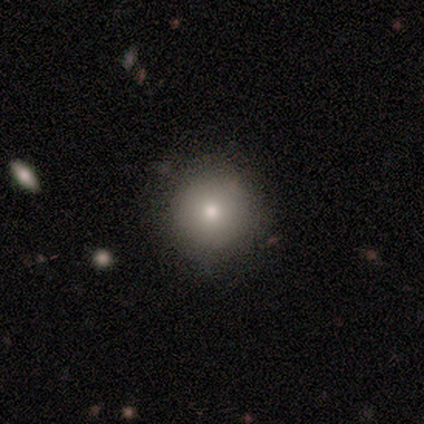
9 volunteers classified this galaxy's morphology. A smooth galaxy with no disk features (100%) that is round (100%). Merging: none (89%).